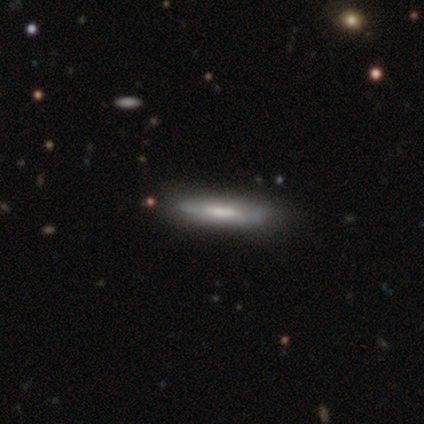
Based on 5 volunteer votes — Morphology: type=featured or disk (80%); edge-on=yes (75%); edge-on bulge=none (67%); merging=none (100%).